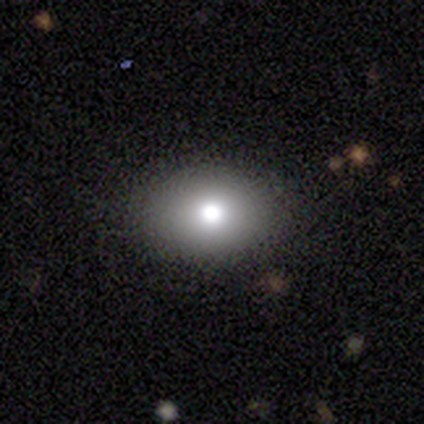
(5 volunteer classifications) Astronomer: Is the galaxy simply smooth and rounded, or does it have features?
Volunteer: smooth — 80%.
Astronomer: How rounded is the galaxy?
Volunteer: in between — 100%.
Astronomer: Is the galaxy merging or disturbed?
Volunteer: none — 100%.